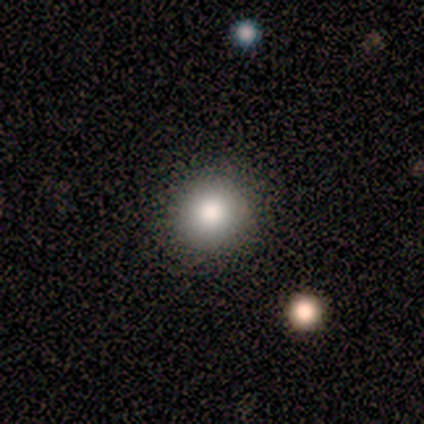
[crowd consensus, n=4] Smooth or featured: smooth — 75% (star or artifact — 25%)
How rounded: round — 100%
Merging: none — 67% (major disturbance — 33%)